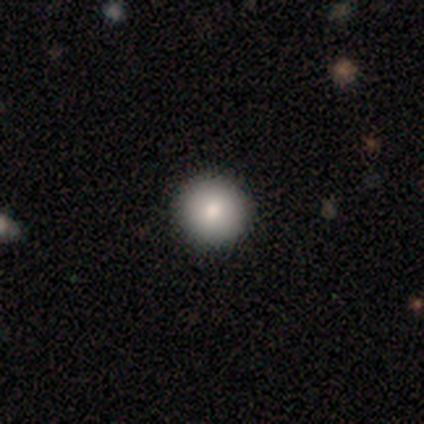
Smooth or featured: smooth — 80% (star or artifact — 20%)
How rounded: round — 100%
Merging: none — 100%